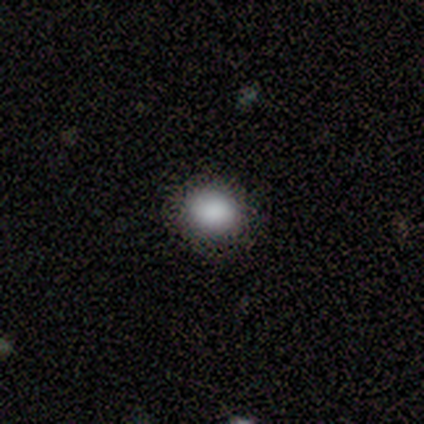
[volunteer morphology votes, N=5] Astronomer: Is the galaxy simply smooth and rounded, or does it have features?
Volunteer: smooth — 80%.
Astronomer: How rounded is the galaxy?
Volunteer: round — 75%.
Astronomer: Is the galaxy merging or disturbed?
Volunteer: none — 100%.